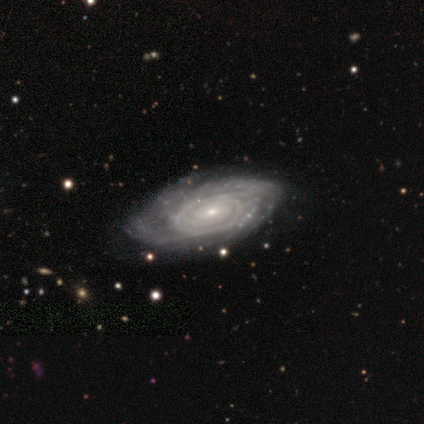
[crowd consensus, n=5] This is clearly a featured or disk galaxy (80%). It is clearly not viewed edge-on (100%). Bar: likely no (75%). Spiral arm pattern: clearly yes (100%). Spiral arm count: possibly can't tell (50%). Spiral winding: likely tight (75%). Central bulge: clearly small (100%). Merging: likely none (75%).